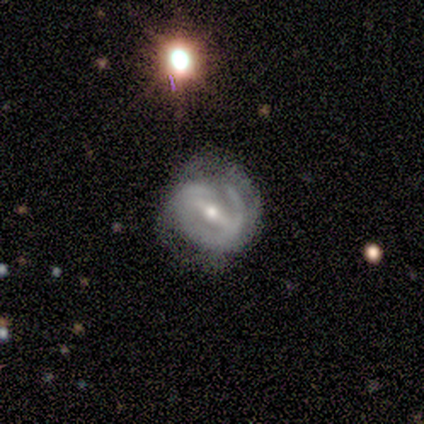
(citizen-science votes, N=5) Volunteers were most divided on "bar": strong: 60%, weak: 40%, no: 0%. More confident: smooth or featured — featured or disk (100%); edge-on disk — no (100%); spiral arm count — 2 (100%); bulge size — moderate (80%); merging — none (80%); spiral winding — tight (67%); spiral arms — yes (60%).